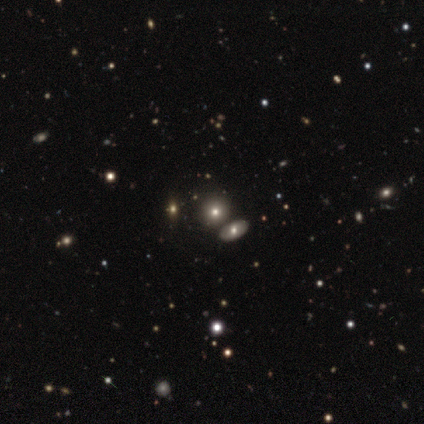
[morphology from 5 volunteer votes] A smooth galaxy with no disk features (40%, tied with featured or disk) that is round (100%).

Vote fractions:
- Smooth or featured? smooth: 40% (tied) / featured or disk: 40% (tied) / star or artifact: 20%
- How rounded? round: 100% / in between: 0% / cigar-shaped: 0%
- Merging? none: 75% / merger: 25% / minor disturbance: 0% / major disturbance: 0%